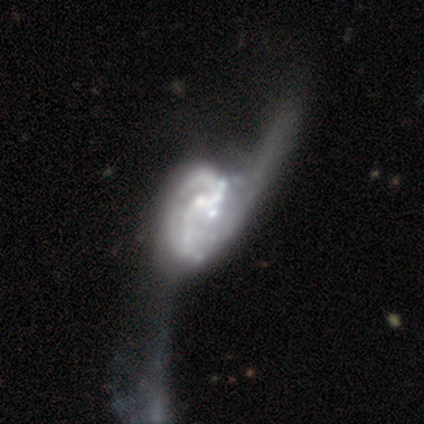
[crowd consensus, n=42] Overall: featured or disk (90%). Edge-on disk: no (100%). Bar: no (92%). Spiral arms: yes (74%). Spiral arm count: 2 (36%, tied with can't tell). Spiral winding: loose (61%; tight 21%). Bulge size: moderate (45%; small 26%). Merging: merger (49%; major disturbance 41%).